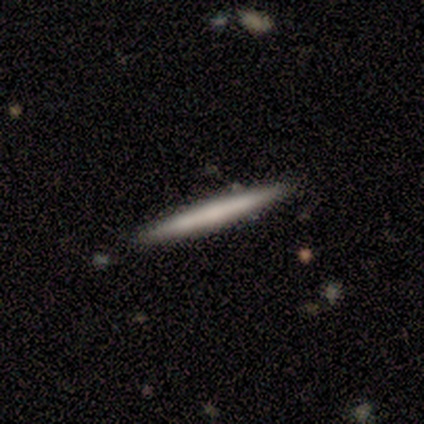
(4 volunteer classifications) Smooth or featured? smooth (100%)
How rounded? cigar-shaped (100%)
Merging? none (100%)